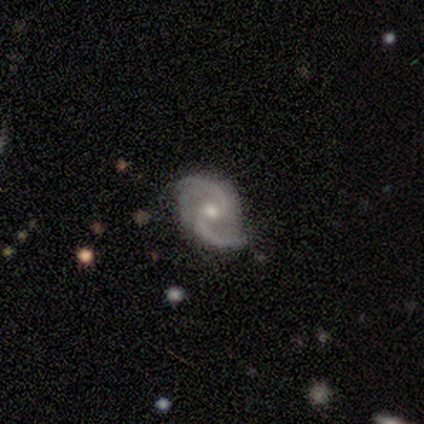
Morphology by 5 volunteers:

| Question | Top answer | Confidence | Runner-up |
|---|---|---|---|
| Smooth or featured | featured or disk | 80% | star or artifact (20%) |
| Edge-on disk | no | 100% | — |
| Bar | weak | 50% | tied: no (50%) |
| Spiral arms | yes | 100% | — |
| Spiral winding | medium | 50% | tied: loose (50%) |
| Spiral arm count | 2 | 100% | — |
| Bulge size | moderate | 75% | small (25%) |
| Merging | none | 100% | — |